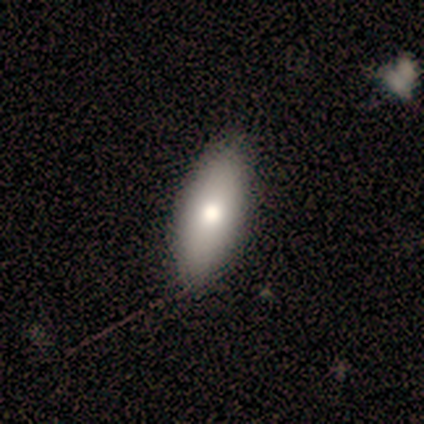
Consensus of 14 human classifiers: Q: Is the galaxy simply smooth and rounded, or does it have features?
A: smooth — 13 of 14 (93%).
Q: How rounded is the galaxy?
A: in between — 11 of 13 (85%).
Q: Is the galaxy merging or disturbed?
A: none — 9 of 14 (64%).